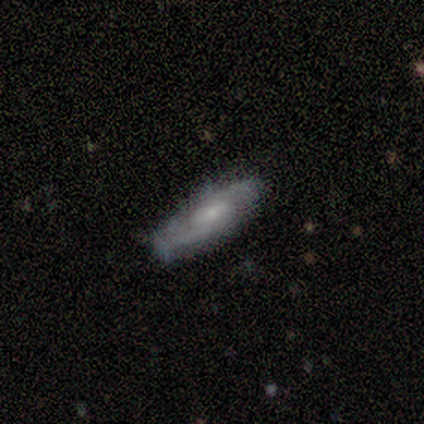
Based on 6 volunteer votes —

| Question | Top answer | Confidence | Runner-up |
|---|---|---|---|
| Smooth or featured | featured or disk | 100% | — |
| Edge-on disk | no | 100% | — |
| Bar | weak | 83% | strong (17%) |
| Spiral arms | yes | 83% | no (17%) |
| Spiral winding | medium | 60% | tight (20%) |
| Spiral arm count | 2 | 80% | 1 (20%) |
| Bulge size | moderate | 50% | tied: small (50%) |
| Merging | none | 100% | — |